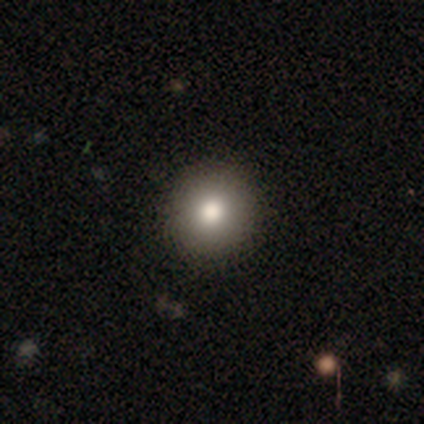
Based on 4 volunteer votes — smooth-or-featured: smooth: 100% | featured or disk: 0% | star or artifact: 0%
  how-rounded: round: 100% | in between: 0% | cigar-shaped: 0%
  merging: none: 100% | minor disturbance: 0% | major disturbance: 0% | merger: 0%